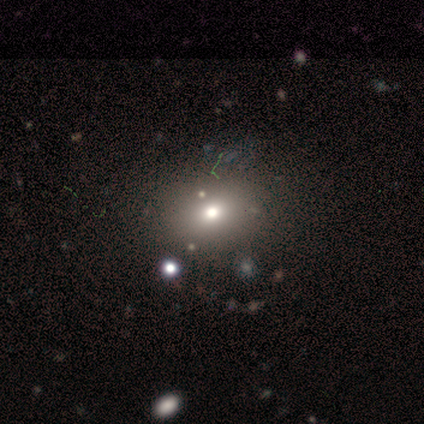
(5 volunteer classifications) smooth_or_featured: smooth (p=0.80) [alt: star or artifact p=0.20]
how_rounded: in between (p=0.75) [alt: round p=0.25]
merging: none (p=1.00)